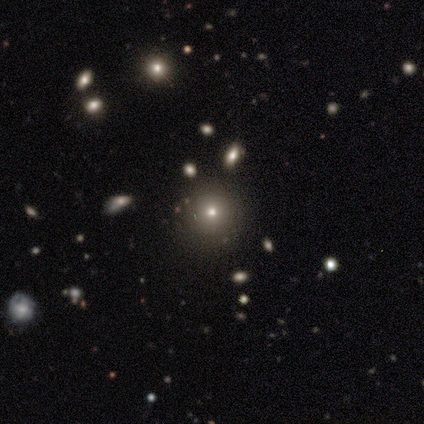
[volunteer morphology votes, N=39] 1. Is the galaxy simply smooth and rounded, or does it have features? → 59% smooth, 26% featured or disk, 15% star or artifact.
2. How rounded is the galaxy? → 96% round, 4% in between, 0% cigar-shaped.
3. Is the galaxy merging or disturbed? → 73% none, 15% minor disturbance, 6% major disturbance, 6% merger.